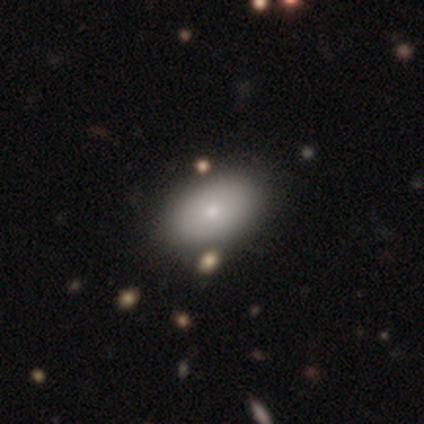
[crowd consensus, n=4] A smooth galaxy with no disk features (50%, tied with featured or disk) that is in between round and cigar-shaped (100%). Merging: none (75%).